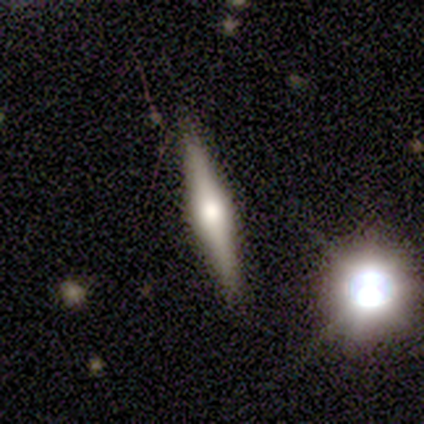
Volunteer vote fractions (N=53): This is likely a featured or disk galaxy (75%). It is clearly viewed edge-on (100%). Edge-on bulge: clearly rounded (90%). Merging: clearly none (85%).